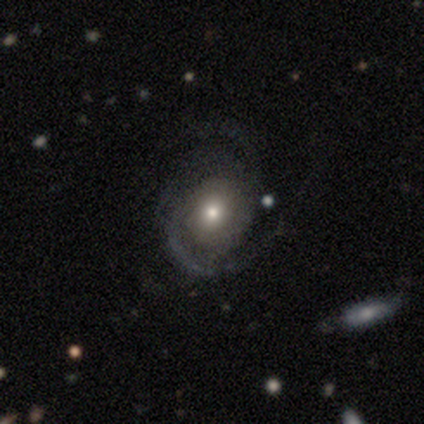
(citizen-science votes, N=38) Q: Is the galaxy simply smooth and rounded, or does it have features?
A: featured or disk — 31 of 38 (82%).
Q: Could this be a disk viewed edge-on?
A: no — 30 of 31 (97%).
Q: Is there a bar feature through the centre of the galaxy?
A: no — 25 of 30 (83%).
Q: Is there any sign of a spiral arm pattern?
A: yes — 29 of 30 (97%).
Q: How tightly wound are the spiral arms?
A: medium — 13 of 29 (45%).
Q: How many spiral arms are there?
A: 2 — 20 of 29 (69%).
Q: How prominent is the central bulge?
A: moderate — 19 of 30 (63%).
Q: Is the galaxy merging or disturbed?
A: none — 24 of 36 (67%).